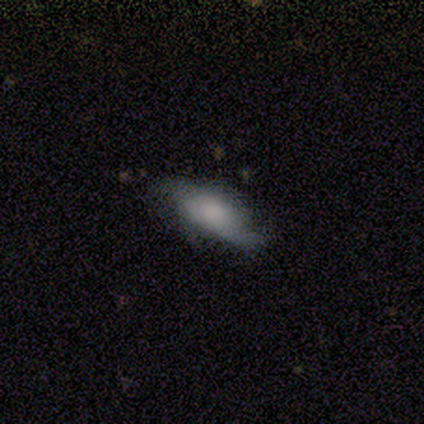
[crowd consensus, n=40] A featured or disk galaxy (50%) with no bar (88%), 2 (67%) loose (73%) spiral arms (88%) and a large central bulge (29%). Merging: none (41%).